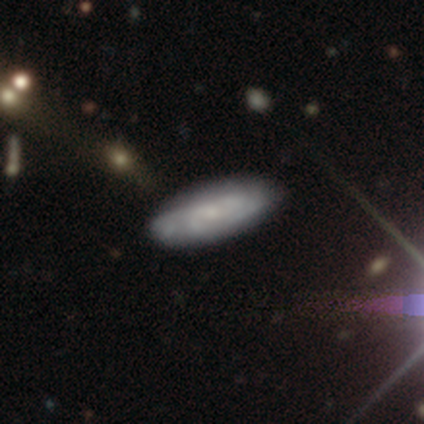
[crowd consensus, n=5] Morphology: type=featured or disk (80%); edge-on=no (75%); bar=no (67%); spiral arms=yes (67%); winding=tight (50%, tied with medium); arm count=more than 4 (50%, tied with can't tell); bulge=small (67%); merging=none (100%).